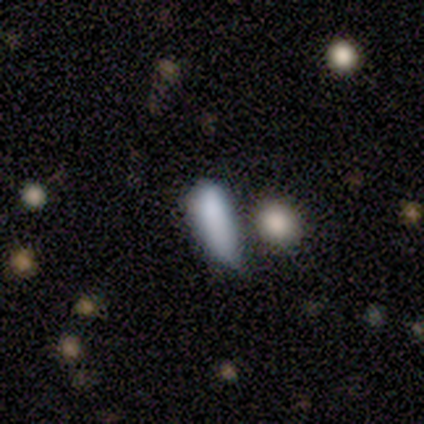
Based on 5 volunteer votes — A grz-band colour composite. It shows a smooth galaxy with no disk features (60%) that is in between round and cigar-shaped (67%). Merging: none (50%, tied with minor disturbance).